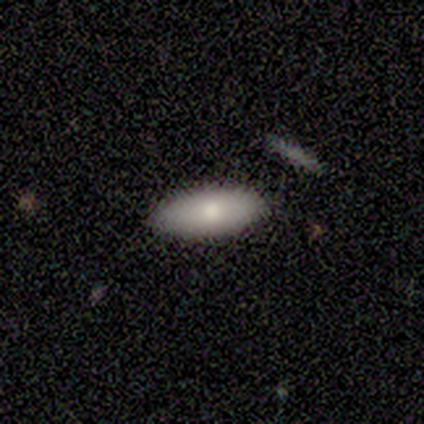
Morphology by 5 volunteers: A smooth galaxy with no disk features (80%) that is in between round and cigar-shaped (75%).

Vote fractions:
- Smooth or featured? smooth: 80% / featured or disk: 20% / star or artifact: 0%
- How rounded? in between: 75% / cigar-shaped: 25% / round: 0%
- Merging? none: 100% / minor disturbance: 0% / major disturbance: 0% / merger: 0%